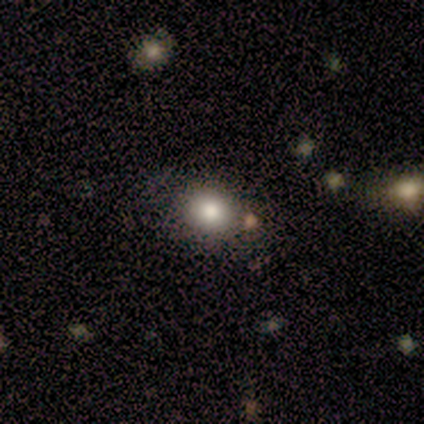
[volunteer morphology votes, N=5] A smooth galaxy with no disk features (100%) that is in between round and cigar-shaped (80%).

Vote fractions:
- Smooth or featured? smooth: 100% / featured or disk: 0% / star or artifact: 0%
- How rounded? in between: 80% / round: 20% / cigar-shaped: 0%
- Merging? none: 100% / minor disturbance: 0% / major disturbance: 0% / merger: 0%